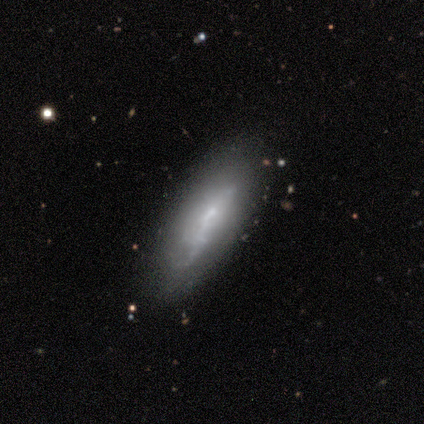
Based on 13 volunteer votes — This appears to be a featured or disk galaxy (69%) with no bar (62%), no spiral arms (75%) and a small central bulge (75%). Merging: none (69%).